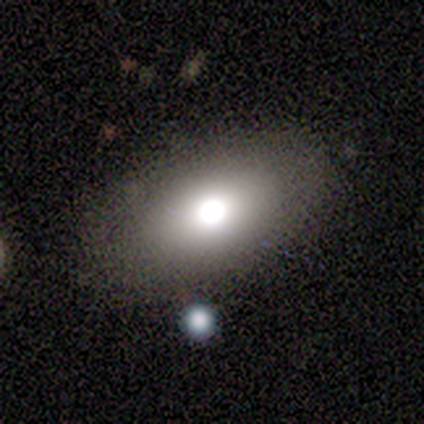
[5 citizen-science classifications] Overall: smooth (80%). How rounded: round (50%, tied with in between). Merging: none (100%).